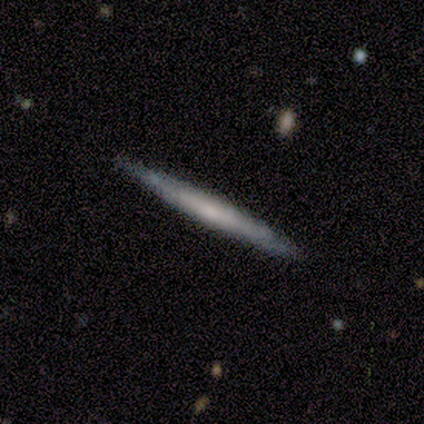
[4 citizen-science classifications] Overall: featured or disk (100%). Edge-on disk: yes (100%). Edge-on bulge: none (75%). Merging: none (100%).